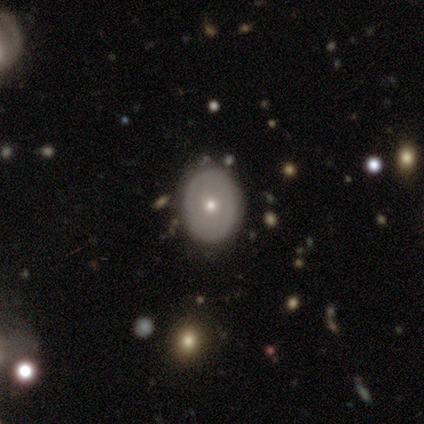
This appears to be a featured or disk galaxy (78%) with no bar (100%), no spiral arms (86%) and a moderate central bulge (71%). Merging: none (89%).